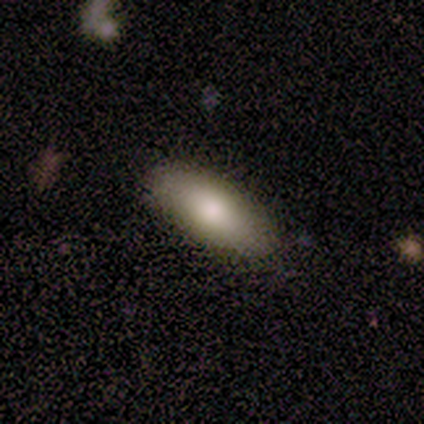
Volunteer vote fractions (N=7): This appears to be a smooth galaxy with no disk features (86%) that is in between round and cigar-shaped (67%). Merging: none (100%).